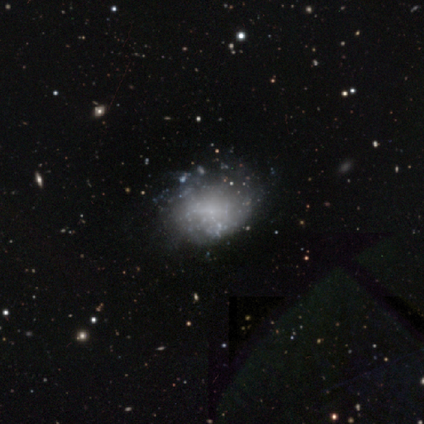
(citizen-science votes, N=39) Overall: featured or disk (67%). Edge-on disk: no (100%). Bar: no (81%). Spiral arms: no (81%). Bulge size: none (81%). Merging: none (59%).